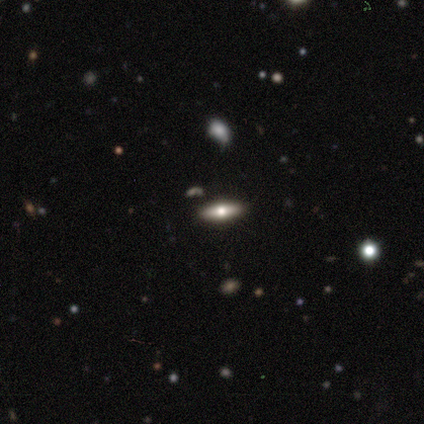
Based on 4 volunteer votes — Volunteers were most divided on "edge-on disk": yes: 67%, no: 33%. More confident: edge-on bulge — rounded (100%); merging — none (100%); smooth or featured — featured or disk (75%).